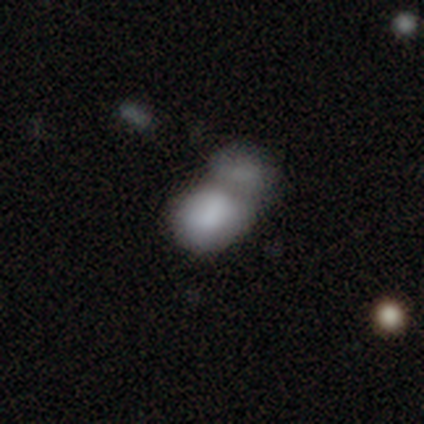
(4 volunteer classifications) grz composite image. It shows a smooth galaxy with no disk features (75%) that is round (67%). Merging: merger (100%).